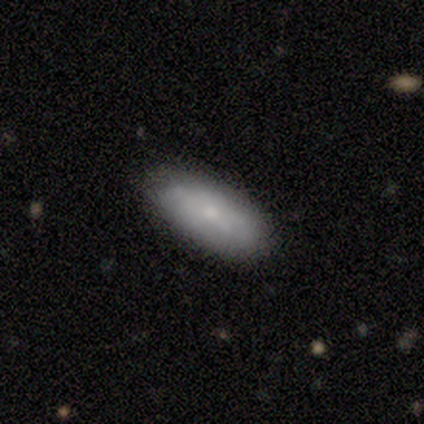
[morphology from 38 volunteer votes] smooth 74%, featured or disk 16%, star or artifact 11%. Down the decision tree: how rounded — in between (86%); merging — none (91%).